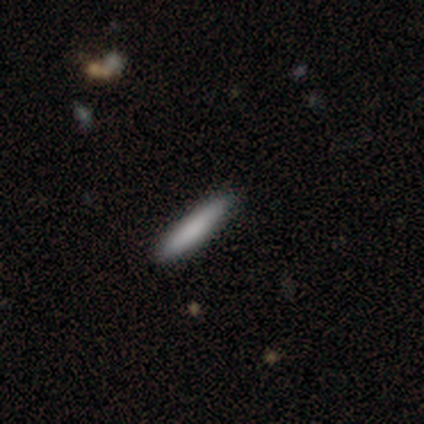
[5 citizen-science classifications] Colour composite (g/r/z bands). It shows a smooth galaxy with no disk features (100%) that is cigar-shaped (100%). Merging: none (60%).